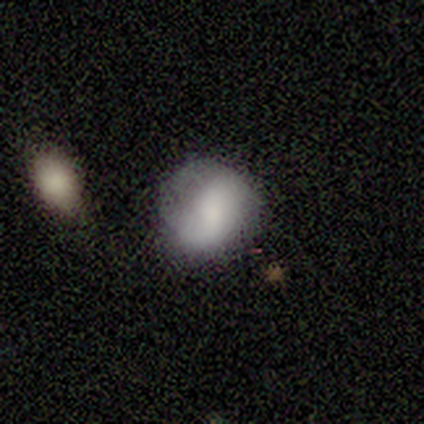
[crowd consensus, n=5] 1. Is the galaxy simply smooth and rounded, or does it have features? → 60% smooth, 20% featured or disk, 20% star or artifact.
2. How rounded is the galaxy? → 100% in between, 0% round, 0% cigar-shaped.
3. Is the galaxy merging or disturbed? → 25% none (tied), 25% minor disturbance (tied), 25% major disturbance (tied), 25% merger (tied).